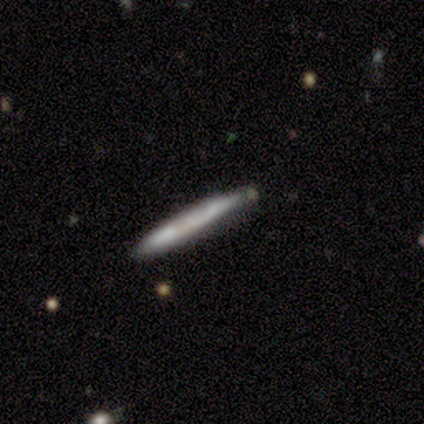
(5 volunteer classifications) Smooth or featured? smooth (60%)
How rounded? cigar-shaped (100%)
Merging? none (100%)